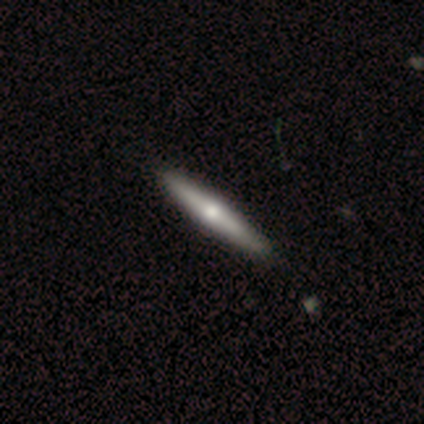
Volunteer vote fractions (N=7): This appears to be a smooth galaxy with no disk features (57%) that is cigar-shaped (75%). Merging: none (86%).